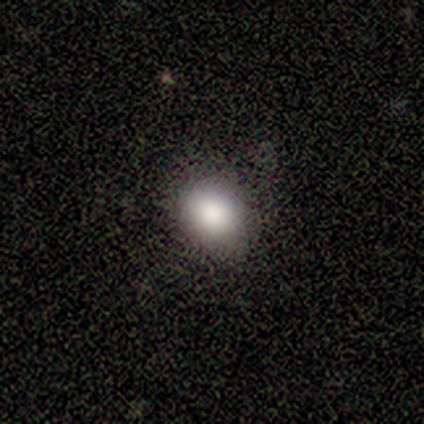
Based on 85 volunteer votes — Smooth or featured?
  - smooth: 86% *
  - star or artifact: 9%
  - featured or disk: 5%
How rounded?
  - round: 63% *
  - in between: 37%
  - cigar-shaped: 0%
Merging?
  - none: 84% *
  - minor disturbance: 9%
  - major disturbance: 5%
  - merger: 1%